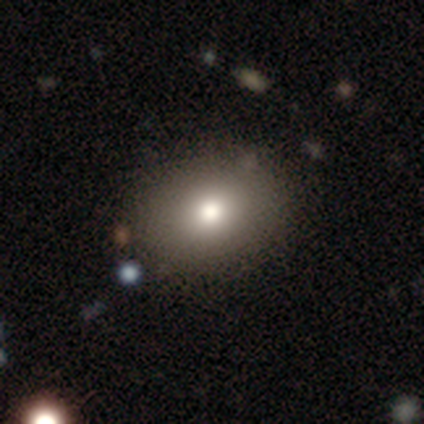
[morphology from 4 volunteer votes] Smooth or featured?
  - smooth: 75% *
  - star or artifact: 25%
  - featured or disk: 0%
How rounded?
  - round: 67% *
  - in between: 33%
  - cigar-shaped: 0%
Merging?
  - none: 100% *
  - minor disturbance: 0%
  - major disturbance: 0%
  - merger: 0%